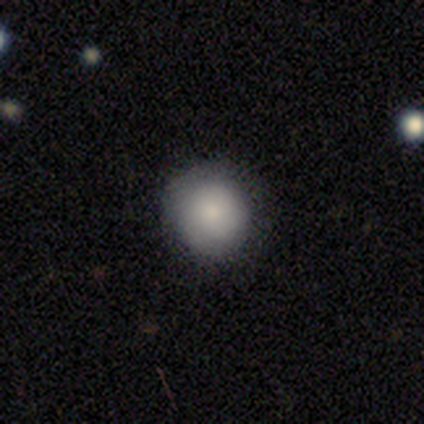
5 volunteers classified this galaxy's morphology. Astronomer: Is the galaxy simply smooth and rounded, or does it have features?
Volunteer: smooth — 80%.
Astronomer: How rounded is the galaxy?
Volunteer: round — 75%.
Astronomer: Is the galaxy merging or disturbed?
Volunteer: none — 100%.